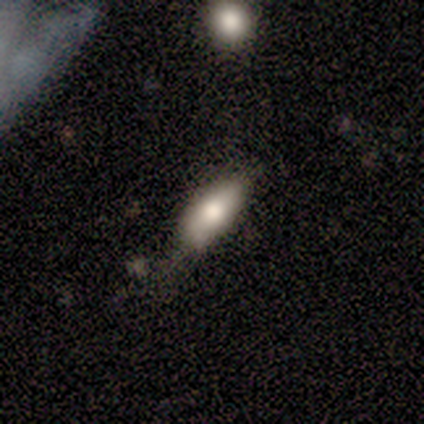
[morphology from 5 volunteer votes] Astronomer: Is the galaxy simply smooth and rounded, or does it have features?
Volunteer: star or artifact — 60% (runner-up: smooth, 40%).